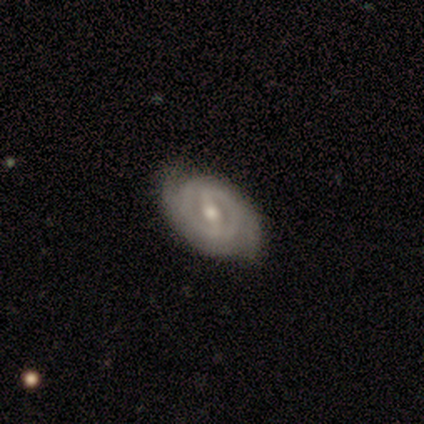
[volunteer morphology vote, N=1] smooth-or-featured: featured or disk: 100% | smooth: 0% | star or artifact: 0%
  disk-edge-on: no: 100% | yes: 0%
    bar: strong: 100% | weak: 0% | no: 0%
    has-spiral-arms: yes: 100% | no: 0%
      spiral-winding: medium: 100% | tight: 0% | loose: 0%
      spiral-arm-count: 2: 100% | 1: 0% | 3: 0% | 4: 0% | more than 4: 0% | can't tell: 0%
    bulge-size: moderate: 100% | dominant: 0% | large: 0% | small: 0% | none: 0%
  merging: none: 100% | minor disturbance: 0% | major disturbance: 0% | merger: 0%